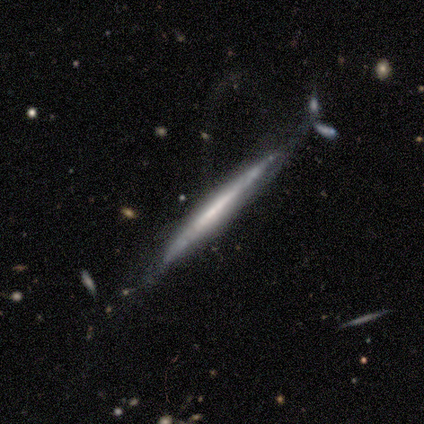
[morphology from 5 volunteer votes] smooth_or_featured: featured or disk (p=0.80) [alt: smooth p=0.20]
disk_edge_on: yes (p=1.00)
edge_on_bulge: none (p=0.75) [alt: boxy p=0.25]
merging: none (p=0.80) [alt: major disturbance p=0.20]